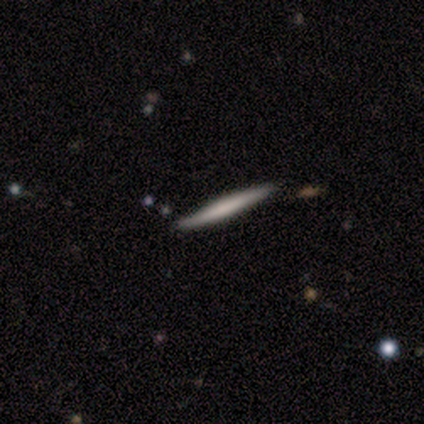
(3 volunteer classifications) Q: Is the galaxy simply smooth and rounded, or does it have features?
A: smooth — 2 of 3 (67%).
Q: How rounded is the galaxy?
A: cigar-shaped — 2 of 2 (100%).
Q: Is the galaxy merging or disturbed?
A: none — 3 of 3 (100%).